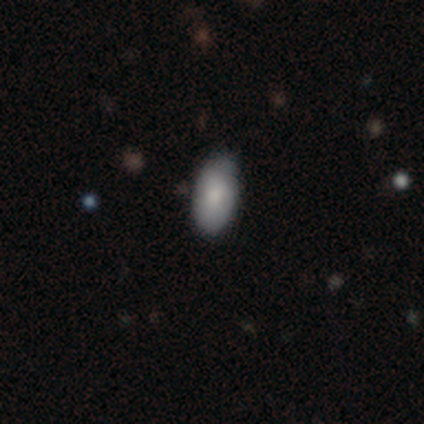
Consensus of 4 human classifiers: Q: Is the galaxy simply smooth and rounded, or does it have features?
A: smooth — 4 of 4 (100%).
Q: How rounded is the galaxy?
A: in between — 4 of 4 (100%).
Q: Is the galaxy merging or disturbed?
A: none — 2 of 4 (50%).